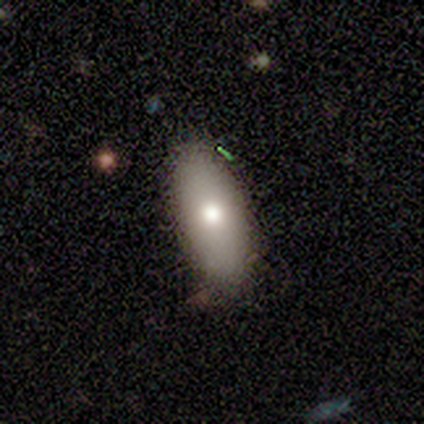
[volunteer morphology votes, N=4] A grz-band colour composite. It shows a smooth galaxy with no disk features (75%) that is in between round and cigar-shaped (100%). Merging: none (100%).